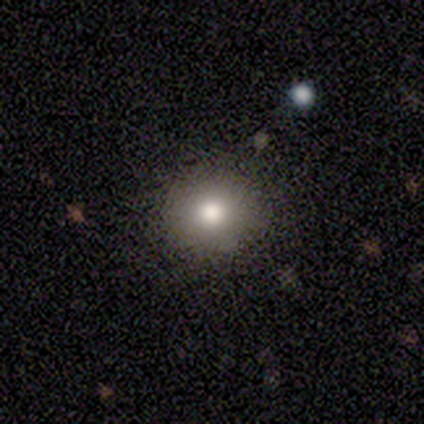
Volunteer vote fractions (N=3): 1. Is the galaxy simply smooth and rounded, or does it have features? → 100% smooth, 0% featured or disk, 0% star or artifact.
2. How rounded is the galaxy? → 67% round, 33% in between, 0% cigar-shaped.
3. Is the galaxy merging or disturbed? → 67% none, 33% minor disturbance, 0% major disturbance, 0% merger.